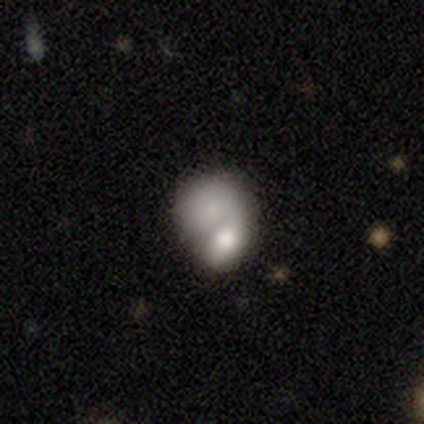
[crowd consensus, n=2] Q: Smooth or featured?
A: smooth (100%)
Q: How rounded?
A: in between (100%)
Q: Merging?
A: none (50%); tied with: major disturbance (50%)